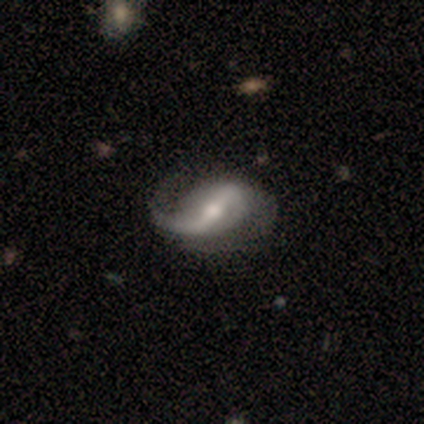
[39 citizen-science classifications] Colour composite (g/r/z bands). It shows a featured or disk galaxy (92%) with a strong bar (63%), 1 (50%, tied with 2) loose (68%) spiral arms (97%) and a moderate central bulge (63%). Merging: none (49%).